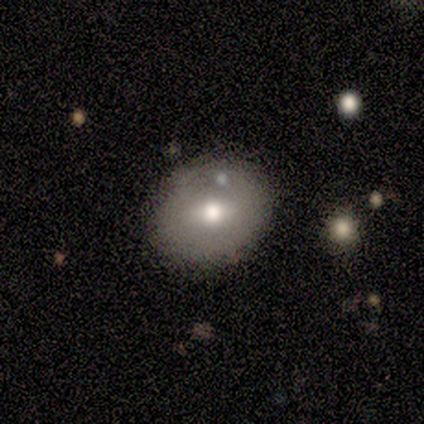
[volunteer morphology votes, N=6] This is clearly a smooth galaxy (100%). How rounded: possibly round (50%, tied with in between). Merging: possibly none (50%).